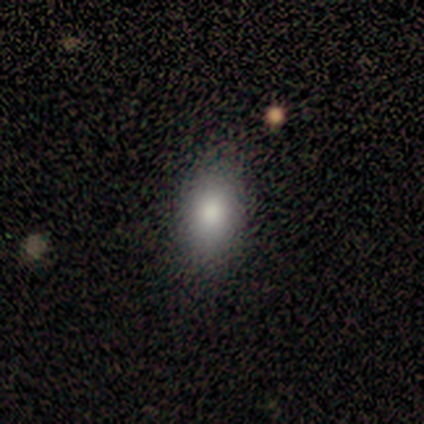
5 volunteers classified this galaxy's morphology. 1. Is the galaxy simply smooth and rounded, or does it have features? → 100% smooth, 0% featured or disk, 0% star or artifact.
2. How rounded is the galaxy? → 80% in between, 20% round, 0% cigar-shaped.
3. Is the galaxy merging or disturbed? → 80% none, 20% major disturbance, 0% minor disturbance, 0% merger.